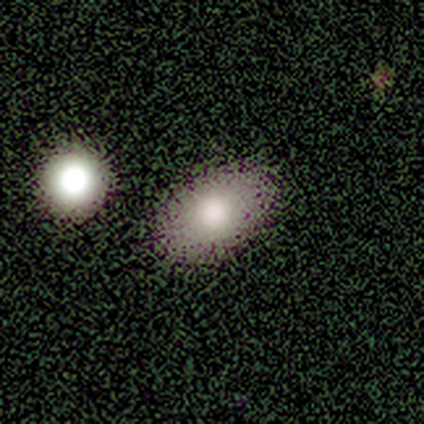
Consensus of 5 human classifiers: A smooth galaxy with no disk features (60%) that is in between round and cigar-shaped (100%).

Vote fractions:
- Smooth or featured? smooth: 60% / star or artifact: 40% / featured or disk: 0%
- How rounded? in between: 100% / round: 0% / cigar-shaped: 0%
- Merging? none: 100% / minor disturbance: 0% / major disturbance: 0% / merger: 0%